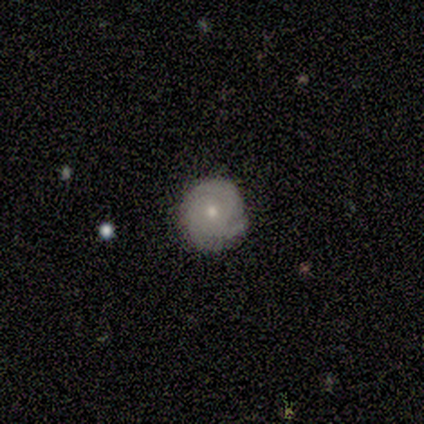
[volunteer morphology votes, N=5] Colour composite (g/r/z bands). It shows a smooth galaxy with no disk features (80%) that is round (75%). Merging: none (60%).